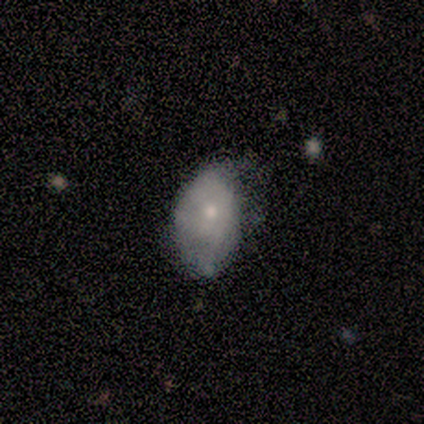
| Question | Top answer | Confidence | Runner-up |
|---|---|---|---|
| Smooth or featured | smooth | 50% | tied: featured or disk (50%) |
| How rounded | in between | 100% | — |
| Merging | minor disturbance | 75% | none (25%) |